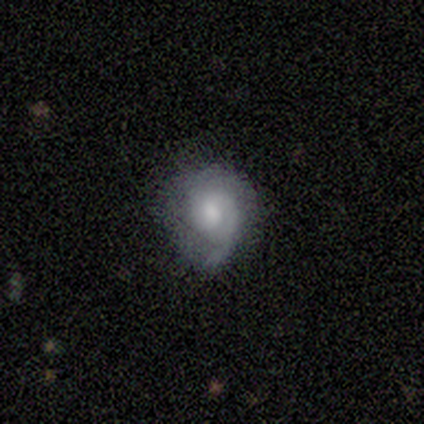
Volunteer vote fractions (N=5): featured or disk 60%, smooth 40%, star or artifact 0%. Down the decision tree: edge-on disk — no (100%); bar — weak (67%); spiral arms — yes (67%); spiral arm count — can't tell (100%); spiral winding — medium (100%); bulge size — large (33%, tied with moderate and small); merging — none (40%, tied with major disturbance).